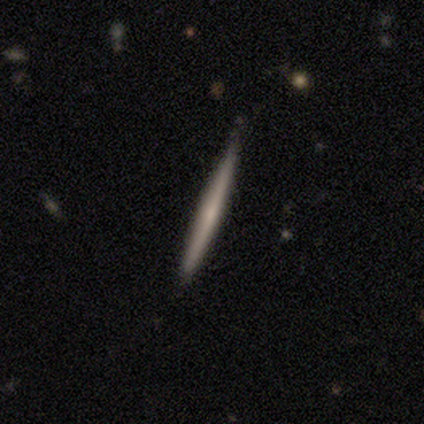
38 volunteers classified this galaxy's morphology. smooth_or_featured: smooth (p=0.50) [alt: featured or disk p=0.47]
how_rounded: cigar-shaped (p=1.00)
merging: none (p=0.54) [alt: minor disturbance p=0.16]